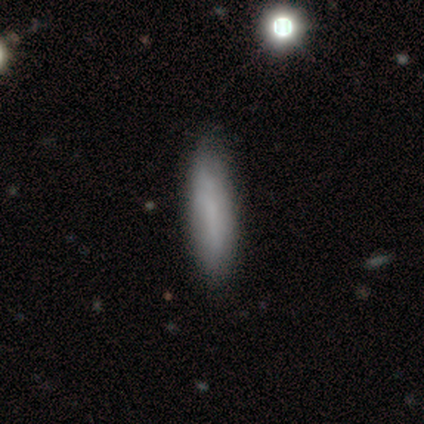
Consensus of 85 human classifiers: A smooth galaxy with no disk features (84%) that is cigar-shaped (76%).

Vote fractions:
- Smooth or featured? smooth: 84% / featured or disk: 11% / star or artifact: 6%
- How rounded? cigar-shaped: 76% / in between: 21% / round: 3%
- Merging? none: 84% / minor disturbance: 11% / major disturbance: 4% / merger: 1%